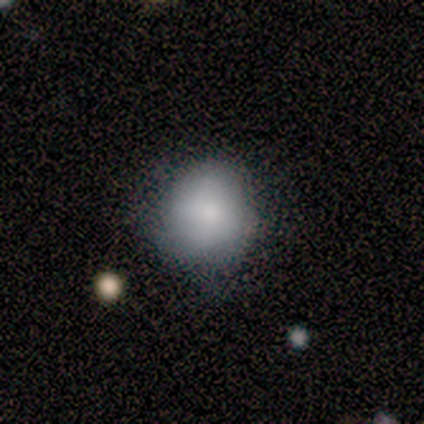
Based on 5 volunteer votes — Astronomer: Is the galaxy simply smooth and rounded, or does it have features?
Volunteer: smooth — 60% (runner-up: featured or disk, 40%).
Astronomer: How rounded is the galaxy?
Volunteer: round — 100%.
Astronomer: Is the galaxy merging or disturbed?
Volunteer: none — 60% (runner-up: minor disturbance, 40%).